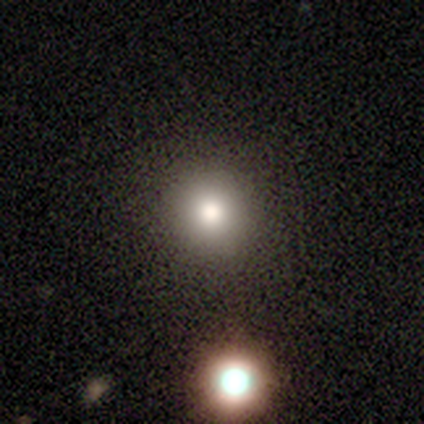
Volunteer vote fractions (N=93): Smooth or featured: smooth — 75% (star or artifact — 16%)
How rounded: round — 93% (in between — 6%)
Merging: none — 92% (major disturbance — 4%)